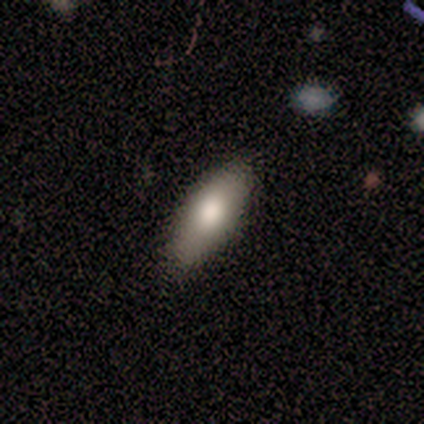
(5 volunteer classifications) Smooth or featured? 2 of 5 (40%, tied with star or artifact) said smooth. How rounded? 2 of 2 (100%) said in between. Merging? 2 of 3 (67%) said none.